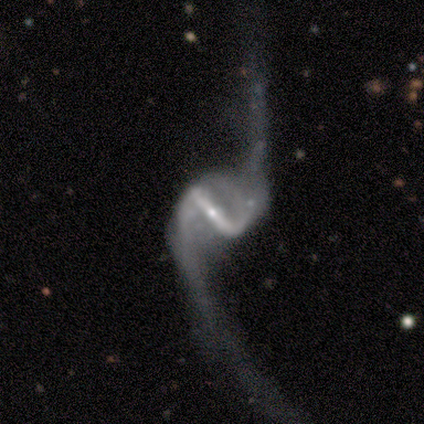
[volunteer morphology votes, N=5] Smooth or featured? featured or disk (100%)
Edge-on disk? no (100%)
Bar? strong (80%)
Spiral arms? yes (100%)
Spiral winding? loose (100%)
Spiral arm count? 2 (100%)
Bulge size? small (100%)
Merging? major disturbance (80%)